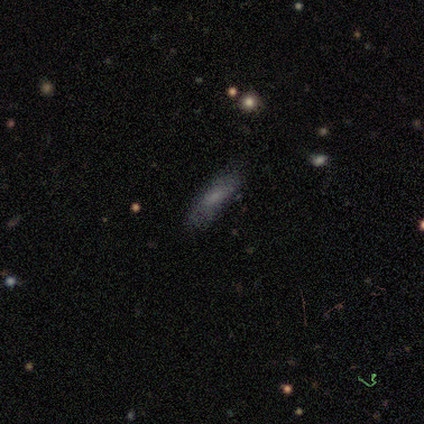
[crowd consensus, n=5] Q: Smooth or featured?
A: smooth (60%); runner-up: featured or disk (40%)
Q: How rounded?
A: in between (67%); runner-up: cigar-shaped (33%)
Q: Merging?
A: none (100%)